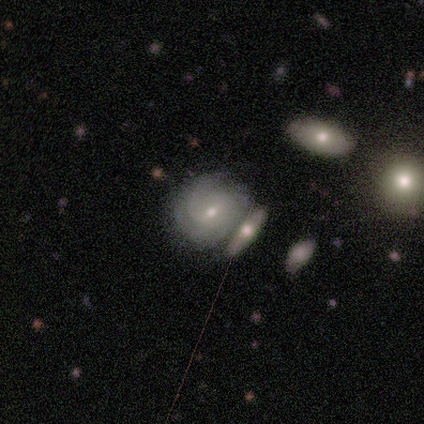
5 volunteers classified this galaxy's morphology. A featured or disk galaxy (60%) with no bar (67%), 1 (50%, tied with 4) tight (100%) spiral arms (67%) and a small central bulge (100%). Merging: none (75%).